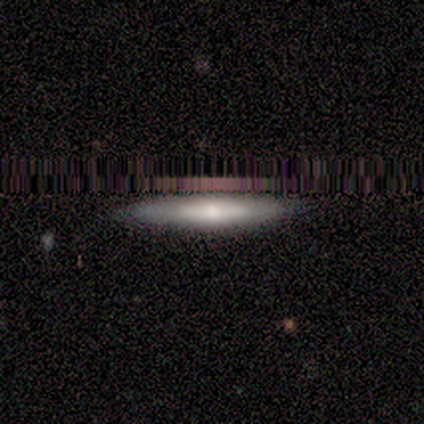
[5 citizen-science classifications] Volunteers were most divided on "smooth or featured": smooth: 60%, featured or disk: 20%, star or artifact: 20%. More confident: how rounded — cigar-shaped (100%); merging — none (100%).